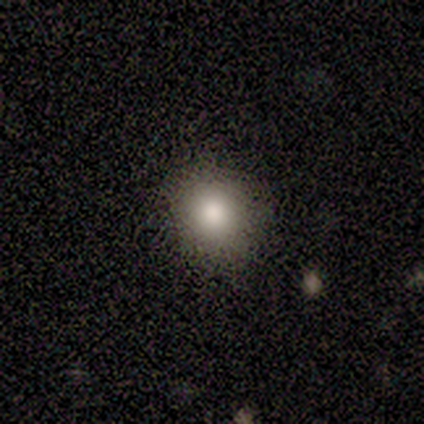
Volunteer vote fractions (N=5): Smooth or featured? smooth (40%, tied with star or artifact)
How rounded? round (100%)
Merging? none (100%)